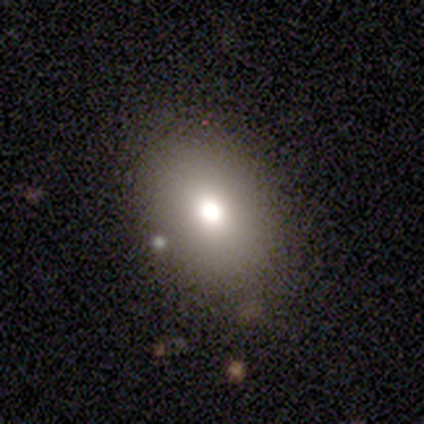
smooth-or-featured: smooth: 57% | star or artifact: 29% | featured or disk: 14%
  how-rounded: in between: 100% | round: 0% | cigar-shaped: 0%
  merging: none: 60% | minor disturbance: 40% | major disturbance: 0% | merger: 0%